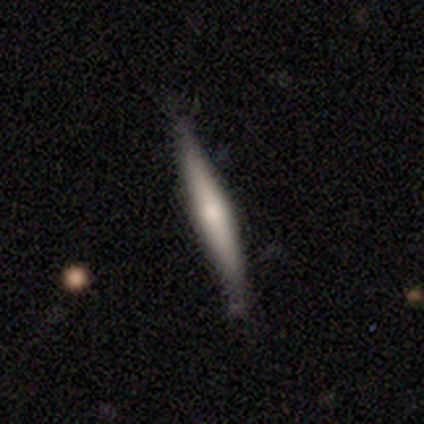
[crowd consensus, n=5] Smooth or featured: featured or disk — 100%
Edge-on disk: yes — 100%
Edge-on bulge: rounded — 60% (none — 40%)
Merging: none — 80% (minor disturbance — 20%)